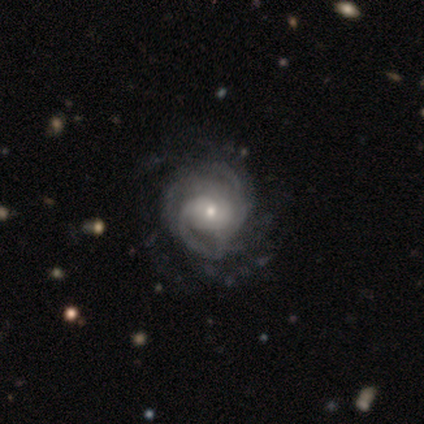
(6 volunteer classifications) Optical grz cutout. It shows a featured or disk galaxy (100%) with no bar (50%), 2 (50%) tight (50%) spiral arms (100%) and a small central bulge (67%). Merging: none (83%).